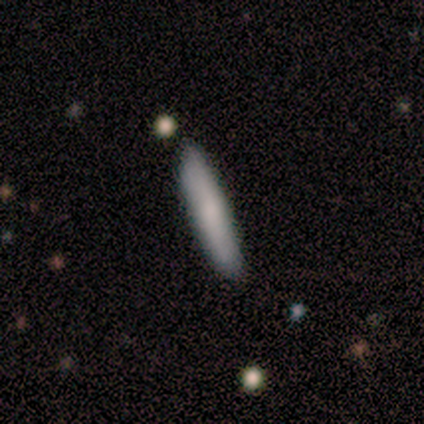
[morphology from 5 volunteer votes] smooth-or-featured: smooth: 60% | featured or disk: 40% | star or artifact: 0%
  how-rounded: cigar-shaped: 100% | round: 0% | in between: 0%
  merging: none: 60% | minor disturbance: 40% | major disturbance: 0% | merger: 0%